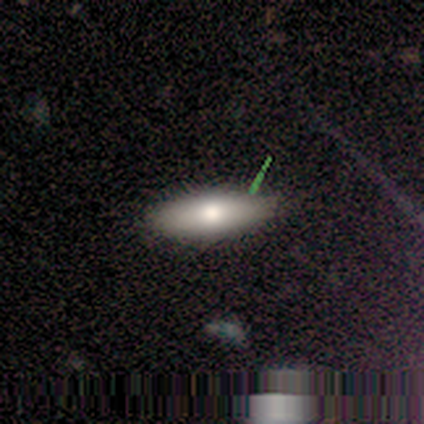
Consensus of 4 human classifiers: Smooth or featured: smooth — 75% (star or artifact — 25%)
How rounded: in between — 67% (cigar-shaped — 33%)
Merging: none — 100%